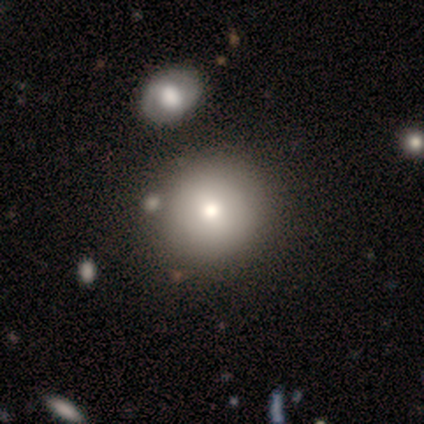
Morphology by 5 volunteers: Smooth or featured? smooth (80%)
How rounded? round (100%)
Merging? none (80%)